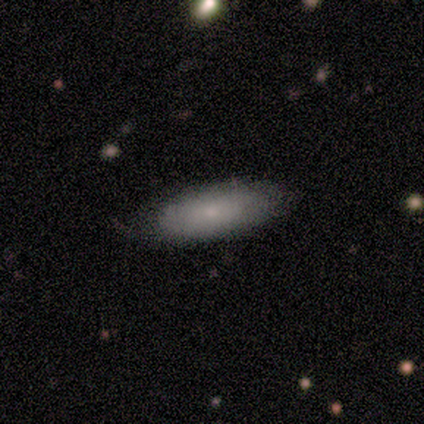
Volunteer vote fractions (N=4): This appears to be a smooth galaxy with no disk features (75%) that is in between round and cigar-shaped (100%). Merging: none (50%, tied with minor disturbance).